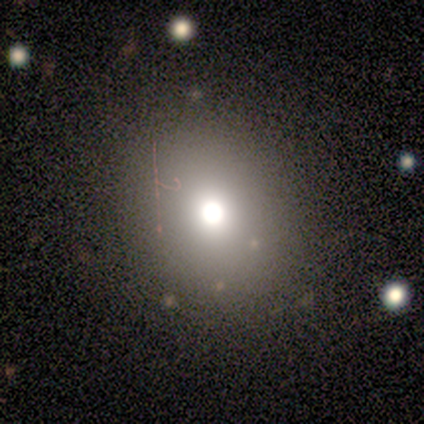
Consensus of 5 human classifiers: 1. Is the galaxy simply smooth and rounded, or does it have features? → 60% smooth, 40% star or artifact, 0% featured or disk.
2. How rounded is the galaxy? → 67% in between, 33% round, 0% cigar-shaped.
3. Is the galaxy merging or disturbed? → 67% none, 33% major disturbance, 0% minor disturbance, 0% merger.